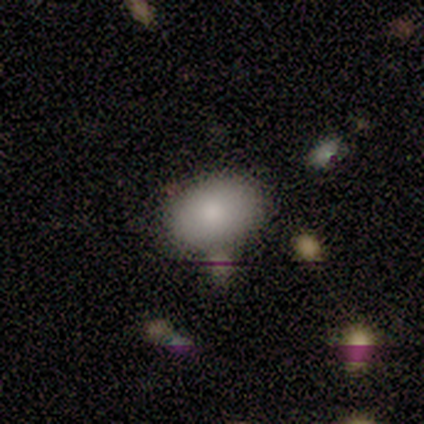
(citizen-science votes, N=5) Smooth or featured? 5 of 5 (100%) said smooth. How rounded? 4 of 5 (80%) said in between. Merging? 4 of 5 (80%) said none.